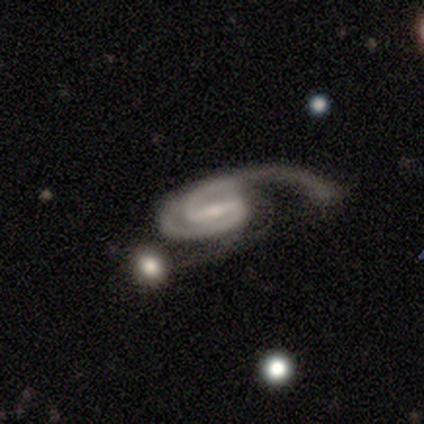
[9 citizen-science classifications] smooth-or-featured: featured or disk: 89% | smooth: 11% | star or artifact: 0%
  disk-edge-on: no: 100% | yes: 0%
    bar: strong: 50% (tied) | weak: 50% (tied) | no: 0%
    has-spiral-arms: yes: 100% | no: 0%
      spiral-winding: tight: 38% (tied) | medium: 38% (tied) | loose: 25%
      spiral-arm-count: 2: 88% | 1: 12% | 3: 0% | 4: 0% | more than 4: 0% | can't tell: 0%
    bulge-size: small: 62% | moderate: 25% | large: 12% | dominant: 0% | none: 0%
  merging: major disturbance: 89% | none: 11% | minor disturbance: 0% | merger: 0%